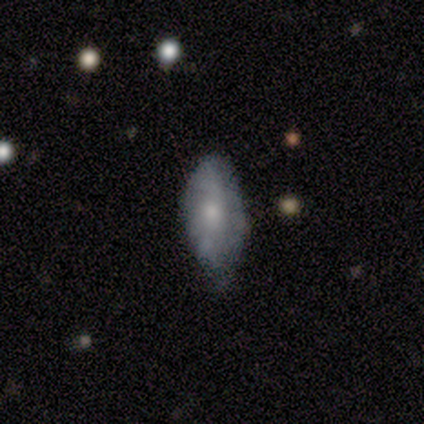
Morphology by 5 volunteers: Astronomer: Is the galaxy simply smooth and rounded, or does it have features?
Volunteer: smooth — 80%.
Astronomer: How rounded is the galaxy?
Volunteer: in between — 75%.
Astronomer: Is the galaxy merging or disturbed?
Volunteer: none — 80%.